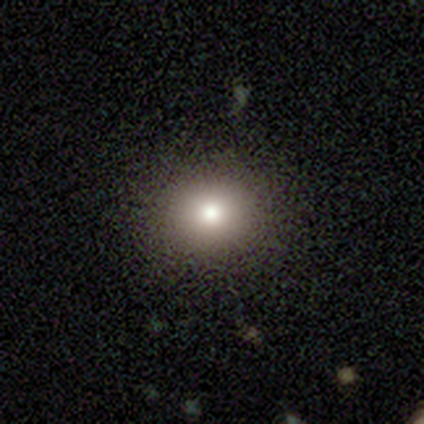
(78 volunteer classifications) Smooth or featured?
  - smooth: 78% *
  - star or artifact: 15%
  - featured or disk: 6%
How rounded?
  - round: 90% *
  - in between: 10%
  - cigar-shaped: 0%
Merging?
  - none: 41% *
  - minor disturbance: 5%
  - merger: 3%
  - major disturbance: 2%